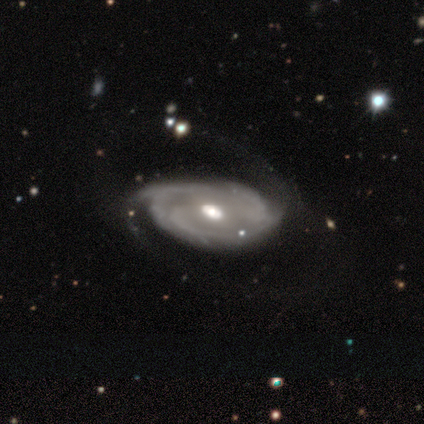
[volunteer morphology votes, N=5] Q: Smooth or featured?
A: featured or disk (80%); runner-up: star or artifact (20%)
Q: Edge-on disk?
A: no (100%)
Q: Bar?
A: weak (50%); tied with: no (50%)
Q: Spiral arms?
A: yes (75%); runner-up: no (25%)
Q: Spiral winding?
A: tight (67%); runner-up: medium (33%)
Q: Spiral arm count?
A: can't tell (67%); runner-up: 4 (33%)
Q: Bulge size?
A: moderate (75%); runner-up: small (25%)
Q: Merging?
A: none (75%); runner-up: minor disturbance (25%)